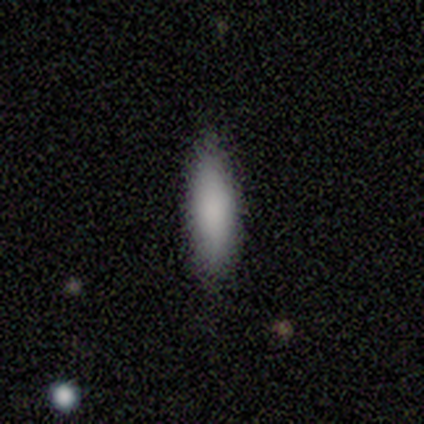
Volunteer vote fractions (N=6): Volunteers were most divided on "how rounded": cigar-shaped: 80%, in between: 20%, round: 0%. More confident: merging — none (100%); smooth or featured — smooth (83%).